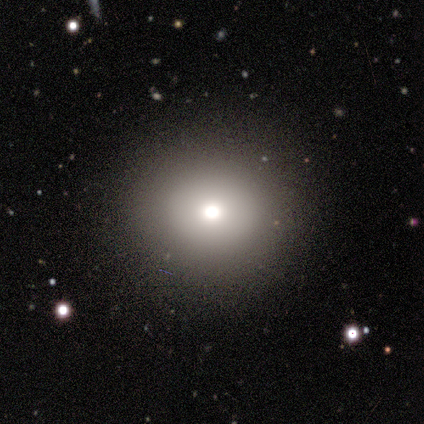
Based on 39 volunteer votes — smooth_or_featured: smooth (p=0.90) [alt: featured or disk p=0.08]
how_rounded: round (p=0.91) [alt: in between p=0.09]
merging: none (p=0.92) [alt: major disturbance p=0.05]